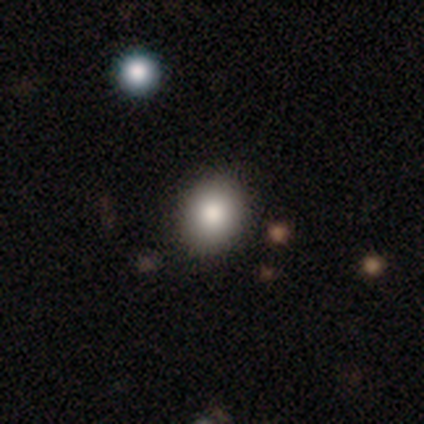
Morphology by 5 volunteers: A smooth galaxy with no disk features (80%) that is round (50%, tied with in between). Merging: none (60%).